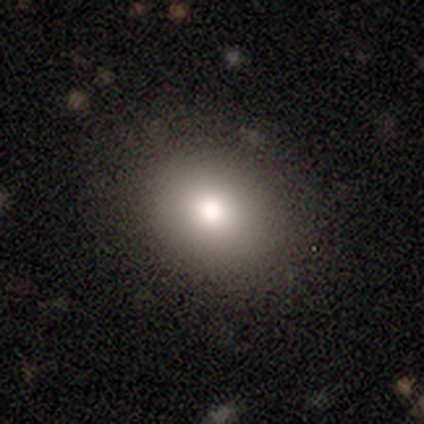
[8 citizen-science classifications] smooth-or-featured: smooth: 88% | star or artifact: 12% | featured or disk: 0%
  how-rounded: round: 71% | in between: 29% | cigar-shaped: 0%
  merging: none: 100% | minor disturbance: 0% | major disturbance: 0% | merger: 0%